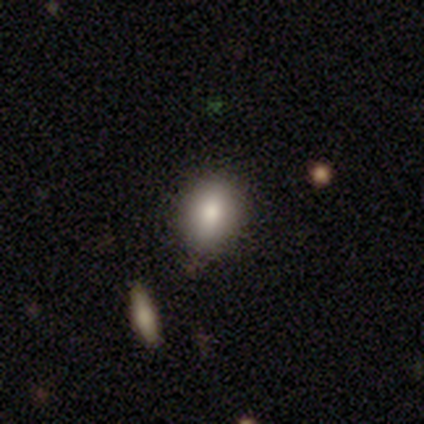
A smooth galaxy with no disk features (60%) that is in between round and cigar-shaped (67%).

Vote fractions:
- Smooth or featured? smooth: 60% / featured or disk: 20% / star or artifact: 20%
- How rounded? in between: 67% / round: 33% / cigar-shaped: 0%
- Merging? none: 100% / minor disturbance: 0% / major disturbance: 0% / merger: 0%